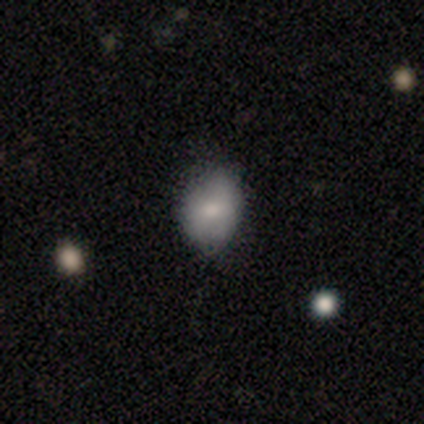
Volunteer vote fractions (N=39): A smooth galaxy with no disk features (85%) that is in between round and cigar-shaped (67%).

Vote fractions:
- Smooth or featured? smooth: 85% / featured or disk: 13% / star or artifact: 3%
- How rounded? in between: 67% / round: 33% / cigar-shaped: 0%
- Merging? none: 50% / minor disturbance: 47% / major disturbance: 3% / merger: 0%